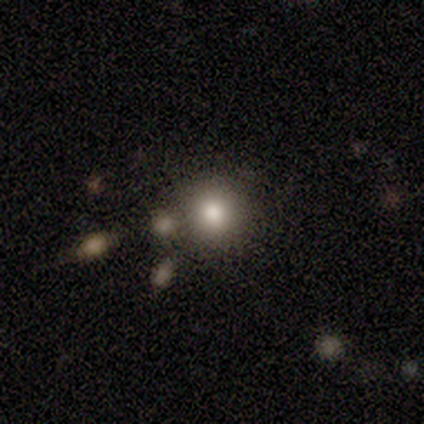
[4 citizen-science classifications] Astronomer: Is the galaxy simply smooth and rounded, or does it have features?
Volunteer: smooth — 50%.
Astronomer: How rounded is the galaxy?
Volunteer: in between — 100%.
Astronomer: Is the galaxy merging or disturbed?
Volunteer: none — 67%.